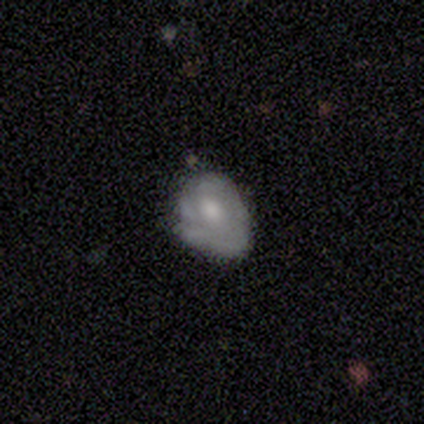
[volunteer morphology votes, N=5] type=featured or disk (80%); edge-on=no (100%); bar=no (75%); spiral arms=yes (50%, tied with no); winding=tight (100%); arm count=1 (50%, tied with can't tell); bulge=moderate (50%, tied with small); merging=minor disturbance (60%).